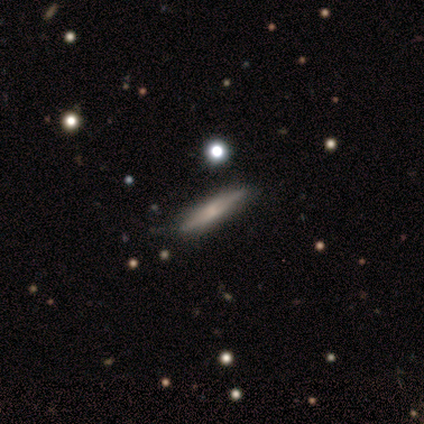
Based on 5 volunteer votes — smooth 40% (tied), featured or disk 40% (tied), star or artifact 20%. Down the decision tree: how rounded — cigar-shaped (100%); merging — none (100%).